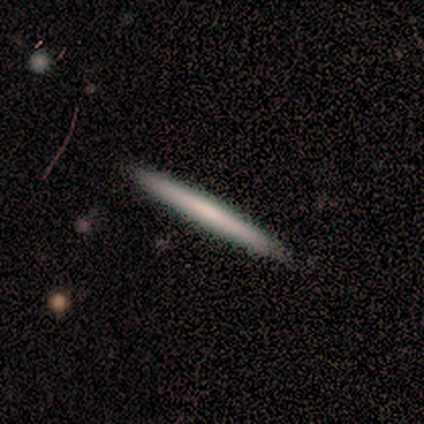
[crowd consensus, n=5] Smooth or featured?
  - smooth: 80% *
  - featured or disk: 20%
  - star or artifact: 0%
How rounded?
  - cigar-shaped: 100% *
  - round: 0%
  - in between: 0%
Merging?
  - none: 100% *
  - minor disturbance: 0%
  - major disturbance: 0%
  - merger: 0%